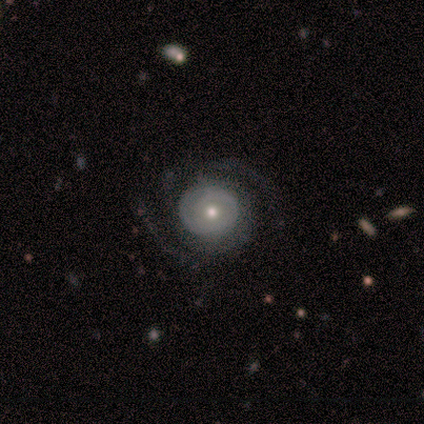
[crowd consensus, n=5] smooth_or_featured: featured or disk (p=1.00)
disk_edge_on: no (p=1.00)
bar: no (p=1.00)
has_spiral_arms: yes (p=1.00)
spiral_winding: tight (p=0.40) [tied with: medium p=0.40]
spiral_arm_count: 2 (p=1.00)
bulge_size: small (p=0.60) [alt: moderate p=0.40]
merging: none (p=0.80) [alt: major disturbance p=0.20]